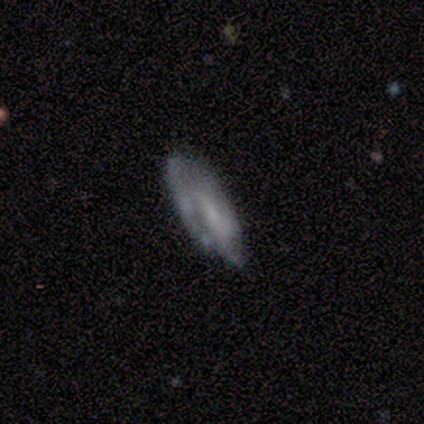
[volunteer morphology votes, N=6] Smooth or featured? smooth (50%, tied with featured or disk)
How rounded? in between (100%)
Merging? none (67%)